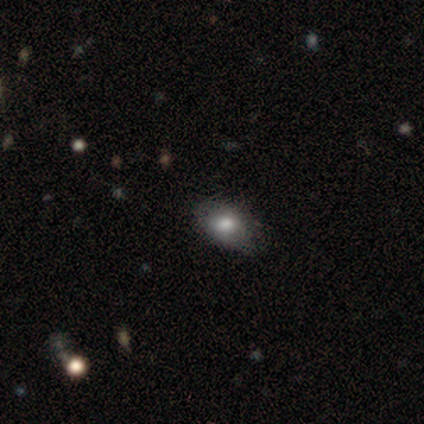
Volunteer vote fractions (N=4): Smooth or featured?
  - smooth: 75% *
  - featured or disk: 25%
  - star or artifact: 0%
How rounded?
  - in between: 100% *
  - round: 0%
  - cigar-shaped: 0%
Merging?
  - none: 75% *
  - minor disturbance: 25%
  - major disturbance: 0%
  - merger: 0%